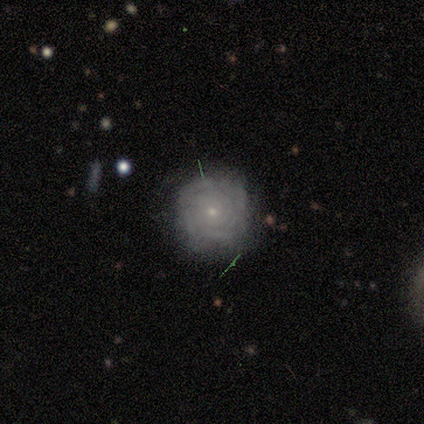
Morphology: type=featured or disk (100%); edge-on=no (100%); bar=no (100%); spiral arms=yes (100%); winding=tight (67%); arm count=4 (67%); bulge=small (67%); merging=none (100%).